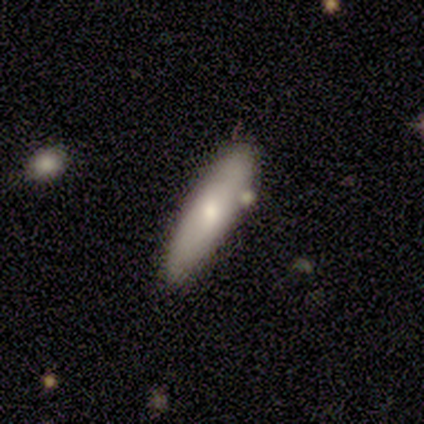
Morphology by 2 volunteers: A smooth galaxy with no disk features (50%, tied with featured or disk) that is in between round and cigar-shaped (100%).

Vote fractions:
- Smooth or featured? smooth: 50% (tied) / featured or disk: 50% (tied) / star or artifact: 0%
- How rounded? in between: 100% / round: 0% / cigar-shaped: 0%
- Merging? none: 100% / minor disturbance: 0% / major disturbance: 0% / merger: 0%